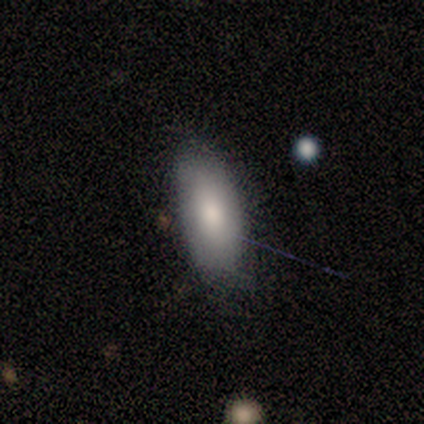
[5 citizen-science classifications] This appears to be a smooth galaxy with no disk features (100%) that is in between round and cigar-shaped (80%). Merging: none (80%).